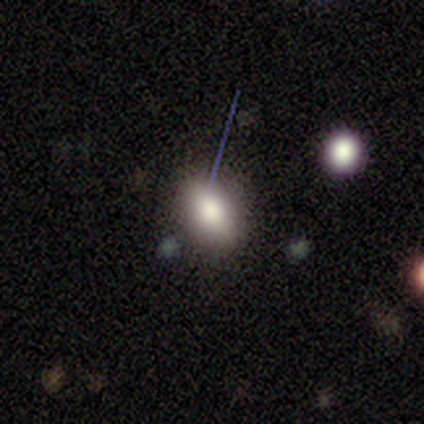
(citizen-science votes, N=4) Overall: smooth (75%). How rounded: in between (67%; round 33%). Merging: none (100%).